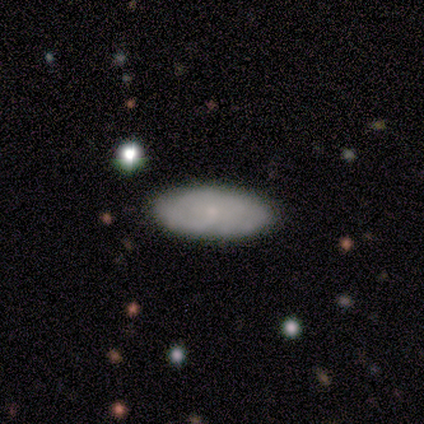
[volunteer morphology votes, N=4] Smooth or featured?
  - smooth: 75% *
  - featured or disk: 25%
  - star or artifact: 0%
How rounded?
  - in between: 100% *
  - round: 0%
  - cigar-shaped: 0%
Merging?
  - none: 100% *
  - minor disturbance: 0%
  - major disturbance: 0%
  - merger: 0%